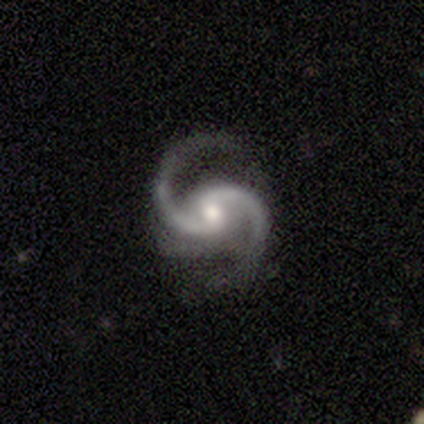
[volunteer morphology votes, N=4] This is clearly a featured or disk galaxy (100%). It is clearly not viewed edge-on (100%). Bar: possibly weak (50%, tied with no). Spiral arm pattern: clearly yes (100%). Spiral arm count: clearly 2 (100%). Spiral winding: possibly medium (50%, tied with loose). Central bulge: likely moderate (75%). Merging: possibly none (50%).